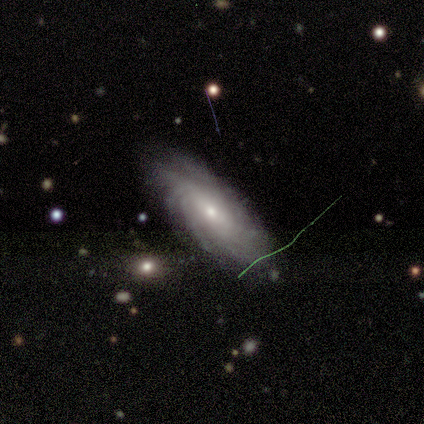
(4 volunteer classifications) Smooth or featured: featured or disk — 75% (smooth — 25%)
Edge-on disk: no — 100%
Bar: no — 67% (weak — 33%)
Spiral arms: yes — 100%
Spiral winding: tight — 100%
Spiral arm count: can't tell — 67% (more than 4 — 33%)
Bulge size: small — 67% (moderate — 33%)
Merging: none — 100%